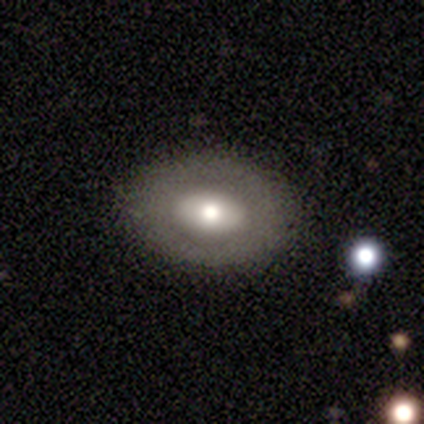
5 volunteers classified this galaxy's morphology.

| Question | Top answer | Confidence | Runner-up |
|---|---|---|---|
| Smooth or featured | featured or disk | 60% | smooth (40%) |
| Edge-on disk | no | 100% | — |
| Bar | no | 100% | — |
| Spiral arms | no | 100% | — |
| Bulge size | small | 67% | moderate (33%) |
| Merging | none | 100% | — |